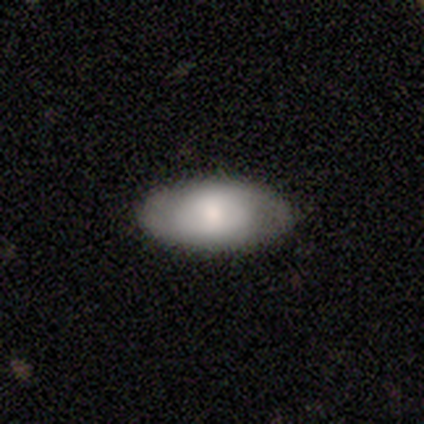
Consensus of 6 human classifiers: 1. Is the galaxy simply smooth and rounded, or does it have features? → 67% smooth, 33% featured or disk, 0% star or artifact.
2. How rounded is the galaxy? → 100% in between, 0% round, 0% cigar-shaped.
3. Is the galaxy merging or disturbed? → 67% none, 17% minor disturbance, 17% merger, 0% major disturbance.